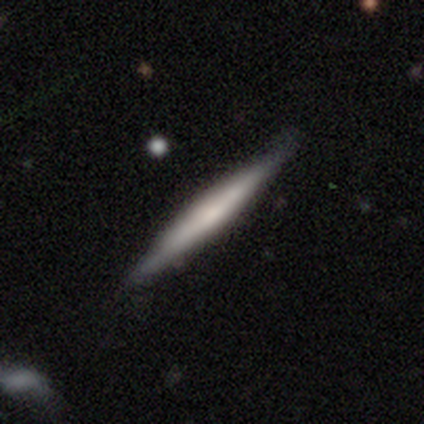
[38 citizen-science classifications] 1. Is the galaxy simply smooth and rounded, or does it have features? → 50% smooth, 47% featured or disk, 3% star or artifact.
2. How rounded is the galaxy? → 100% cigar-shaped, 0% round, 0% in between.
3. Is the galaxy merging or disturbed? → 86% none, 11% minor disturbance, 3% major disturbance, 0% merger.